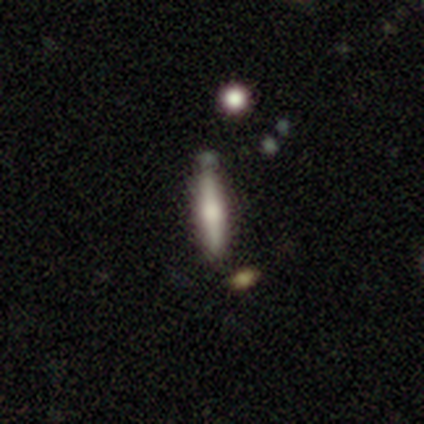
Smooth or featured? featured or disk (60%)
Edge-on disk? yes (100%)
Edge-on bulge? rounded (67%)
Merging? none (80%)